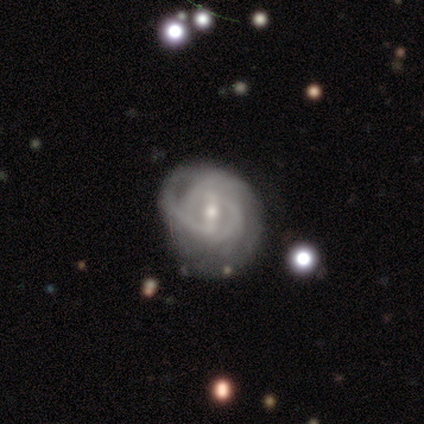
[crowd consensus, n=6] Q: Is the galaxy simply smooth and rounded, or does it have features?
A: featured or disk — 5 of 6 (83%).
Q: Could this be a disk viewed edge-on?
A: no — 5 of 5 (100%).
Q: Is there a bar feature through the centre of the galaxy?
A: weak — 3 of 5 (60%).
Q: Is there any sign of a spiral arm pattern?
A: yes — 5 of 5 (100%).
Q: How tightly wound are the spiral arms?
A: tight — 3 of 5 (60%).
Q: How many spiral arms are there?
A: can't tell — 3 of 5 (60%).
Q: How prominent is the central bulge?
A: moderate — 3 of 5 (60%).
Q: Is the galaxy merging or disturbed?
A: minor disturbance — 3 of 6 (50%).